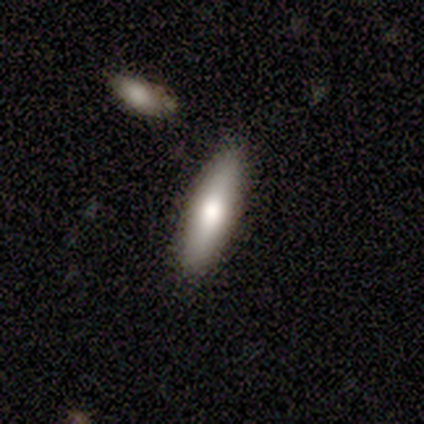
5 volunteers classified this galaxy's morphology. A smooth galaxy with no disk features (80%) that is cigar-shaped (75%).

Vote fractions:
- Smooth or featured? smooth: 80% / featured or disk: 20% / star or artifact: 0%
- How rounded? cigar-shaped: 75% / in between: 25% / round: 0%
- Merging? none: 80% / merger: 20% / minor disturbance: 0% / major disturbance: 0%